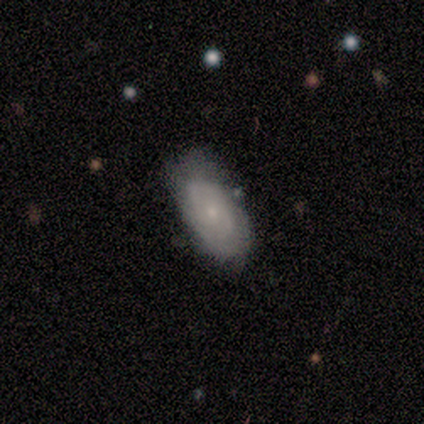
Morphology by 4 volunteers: Overall: smooth (50%, tied with featured or disk). How rounded: in between (100%). Merging: none (50%; minor disturbance 25%).